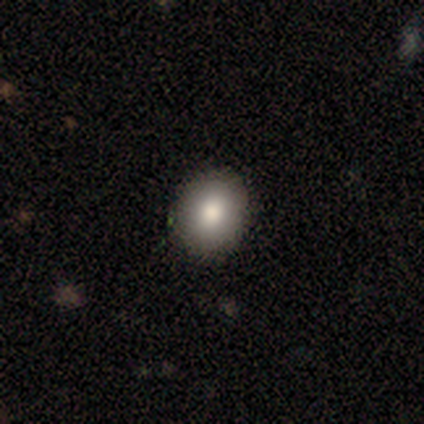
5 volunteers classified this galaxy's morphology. A smooth galaxy with no disk features (80%) that is round (50%, tied with in between). Merging: none (100%).